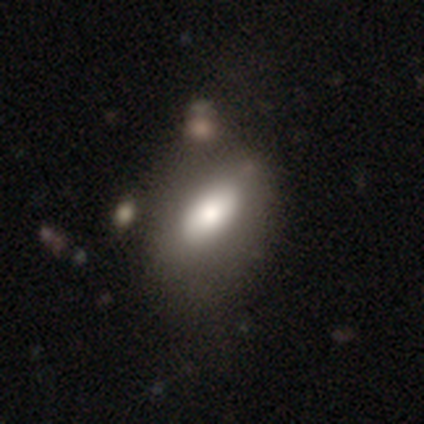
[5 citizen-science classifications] Volunteers were most divided on "merging": none: 60%, minor disturbance: 20%, major disturbance: 20%, merger: 0%. More confident: smooth or featured — smooth (80%); how rounded — in between (75%).